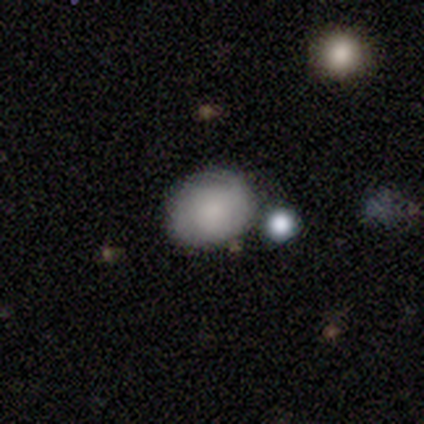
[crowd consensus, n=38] Smooth or featured? 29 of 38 (76%) said smooth. How rounded? 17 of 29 (59%) said in between. Merging? 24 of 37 (65%) said none.